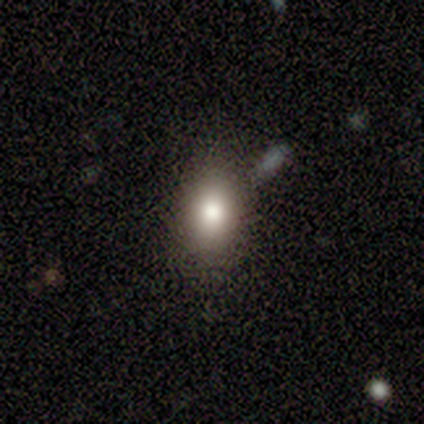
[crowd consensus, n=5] A smooth galaxy with no disk features (80%) that is in between round and cigar-shaped (75%).

Vote fractions:
- Smooth or featured? smooth: 80% / featured or disk: 20% / star or artifact: 0%
- How rounded? in between: 75% / round: 25% / cigar-shaped: 0%
- Merging? none: 60% / major disturbance: 20% / merger: 20% / minor disturbance: 0%